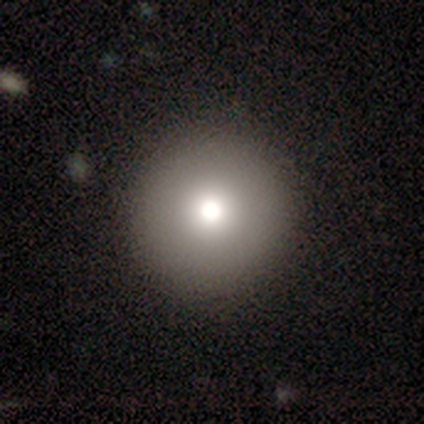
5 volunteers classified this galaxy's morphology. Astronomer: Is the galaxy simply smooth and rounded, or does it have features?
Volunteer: smooth — 100%.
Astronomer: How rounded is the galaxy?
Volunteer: round — 100%.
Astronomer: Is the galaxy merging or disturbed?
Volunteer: none — 100%.